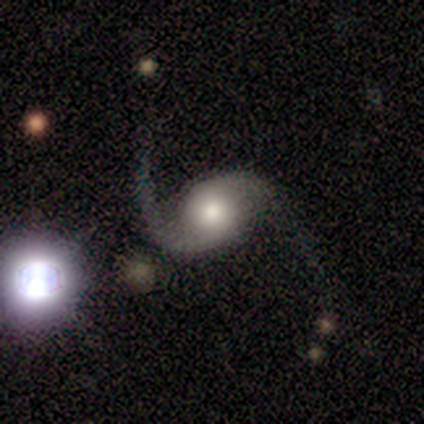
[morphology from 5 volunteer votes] Smooth or featured? featured or disk (100%)
Edge-on disk? no (60%)
Bar? no (100%)
Spiral arms? yes (100%)
Spiral winding? medium (67%)
Spiral arm count? 2 (67%)
Bulge size? moderate (67%)
Merging? minor disturbance (40%)